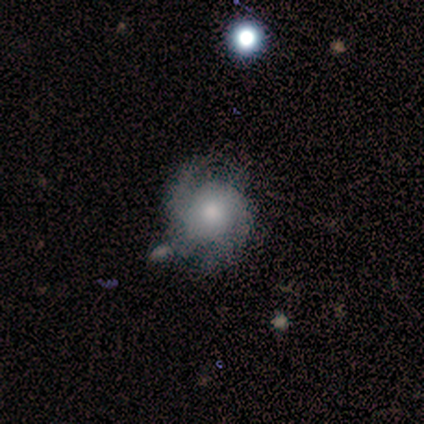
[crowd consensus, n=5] A featured or disk galaxy (100%) with no bar (100%), 2 (75%) loose (50%) spiral arms (100%) and a moderate central bulge (75%).

Vote fractions:
- Smooth or featured? featured or disk: 100% / smooth: 0% / star or artifact: 0%
- Edge-on disk? no: 80% / yes: 20%
- Bar? no: 100% / strong: 0% / weak: 0%
- Spiral arms? yes: 100% / no: 0%
- Spiral winding? loose: 50% / tight: 25% / medium: 25%
- Spiral arm count? 2: 75% / 1: 25% / 3: 0% / 4: 0% / more than 4: 0% / can't tell: 0%
- Bulge size? moderate: 75% / small: 25% / dominant: 0% / large: 0% / none: 0%
- Merging? none: 40% (tied) / minor disturbance: 40% (tied) / major disturbance: 20% / merger: 0%